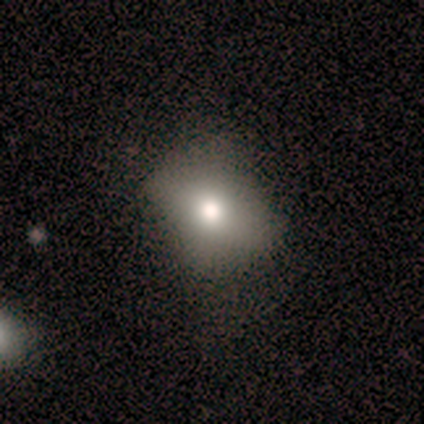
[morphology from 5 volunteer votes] This is likely a smooth galaxy (60%). How rounded: likely round (67%). Merging: likely none (75%).